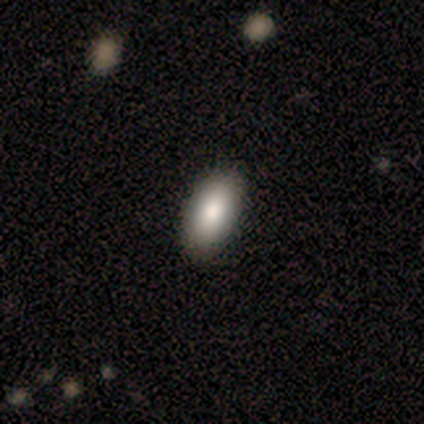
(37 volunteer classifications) Smooth or featured? smooth (97%)
How rounded? in between (100%)
Merging? none (76%)